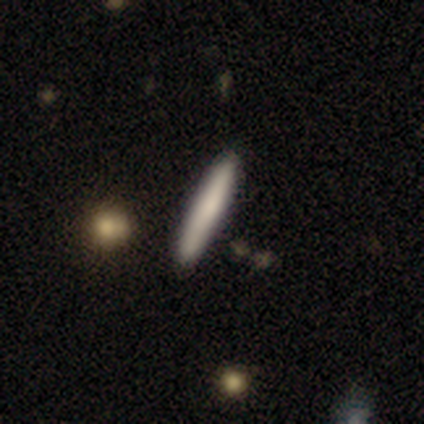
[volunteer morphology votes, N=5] Smooth or featured?
  - smooth: 60% *
  - featured or disk: 20%
  - star or artifact: 20%
How rounded?
  - cigar-shaped: 67% *
  - in between: 33%
  - round: 0%
Merging?
  - none: 75% *
  - merger: 25%
  - minor disturbance: 0%
  - major disturbance: 0%